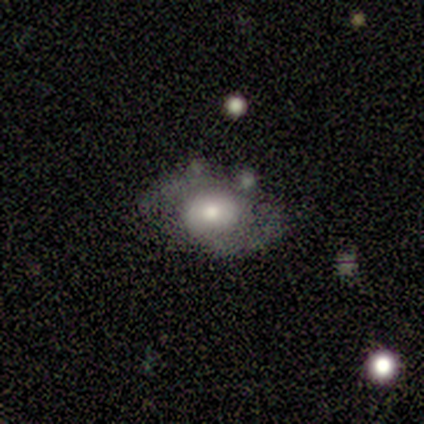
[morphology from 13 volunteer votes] smooth_or_featured: featured or disk (p=0.85) [alt: smooth p=0.15]
disk_edge_on: no (p=1.00)
bar: no (p=0.82) [alt: weak p=0.18]
has_spiral_arms: yes (p=0.91) [alt: no p=0.09]
spiral_winding: medium (p=0.70) [alt: tight p=0.20]
spiral_arm_count: 2 (p=0.80) [alt: can't tell p=0.20]
bulge_size: moderate (p=0.73) [alt: small p=0.18]
merging: none (p=0.69) [alt: minor disturbance p=0.23]